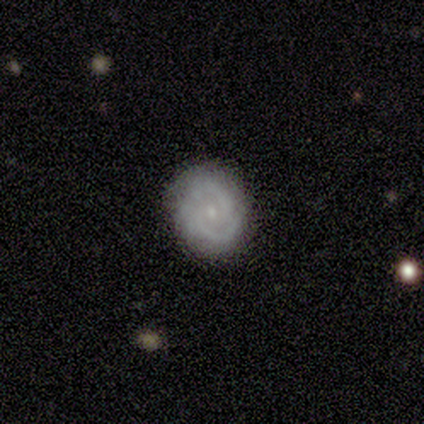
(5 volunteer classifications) Smooth or featured? 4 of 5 (80%) said featured or disk. Edge-on disk? 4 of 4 (100%) said no. Bar? 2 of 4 (50%, tied with no) said weak. Spiral arms? 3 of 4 (75%) said yes. Spiral winding? 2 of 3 (67%) said loose. Spiral arm count? 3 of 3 (100%) said 2. Bulge size? 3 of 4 (75%) said small. Merging? 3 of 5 (60%) said minor disturbance.